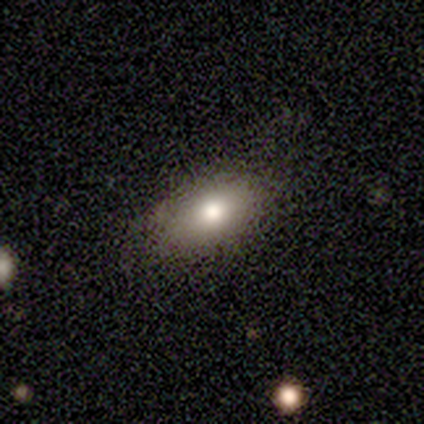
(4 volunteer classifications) Morphology: type=smooth (100%); roundness=in between (100%); merging=none (75%).